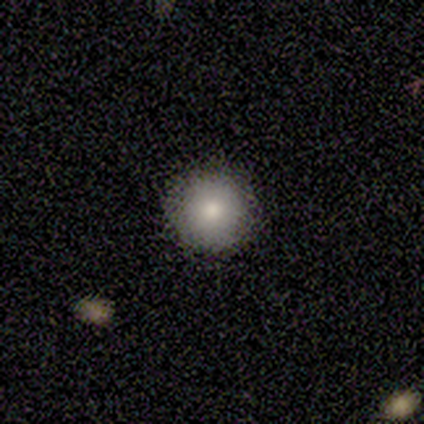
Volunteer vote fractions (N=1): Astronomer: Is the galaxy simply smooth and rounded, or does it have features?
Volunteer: smooth — 100%.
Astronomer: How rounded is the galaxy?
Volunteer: round — 100%.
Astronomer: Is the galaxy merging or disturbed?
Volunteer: none — 100%.